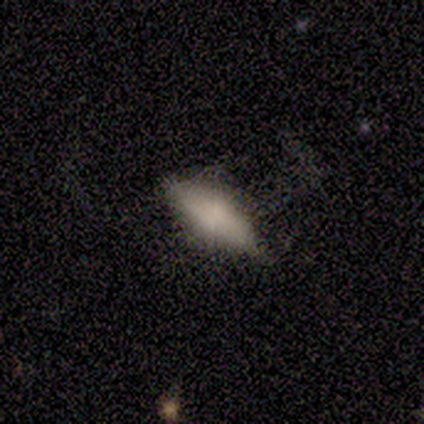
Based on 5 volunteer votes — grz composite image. It shows a smooth galaxy with no disk features (100%) that is in between round and cigar-shaped (80%). Merging: none (80%).